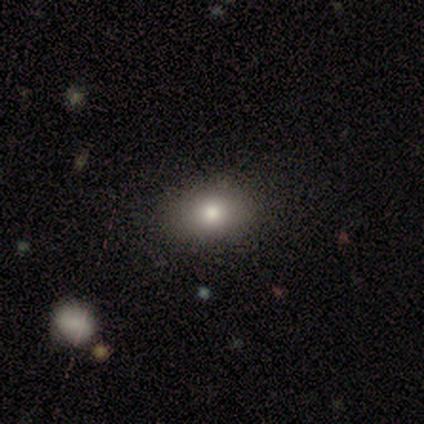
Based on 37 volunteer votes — Overall: smooth (76%). How rounded: in between (79%). Merging: none (72%).